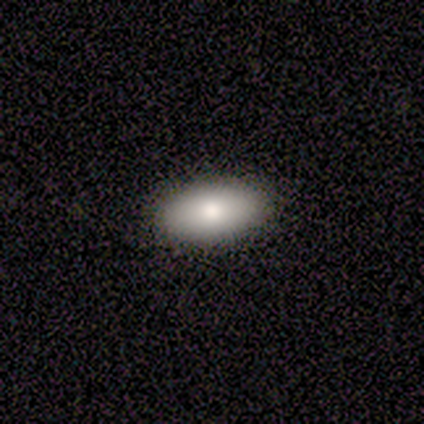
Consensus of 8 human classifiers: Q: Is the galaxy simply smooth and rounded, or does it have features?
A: smooth — 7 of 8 (88%).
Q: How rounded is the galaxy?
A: in between — 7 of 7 (100%).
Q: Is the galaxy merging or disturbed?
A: none — 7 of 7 (100%).